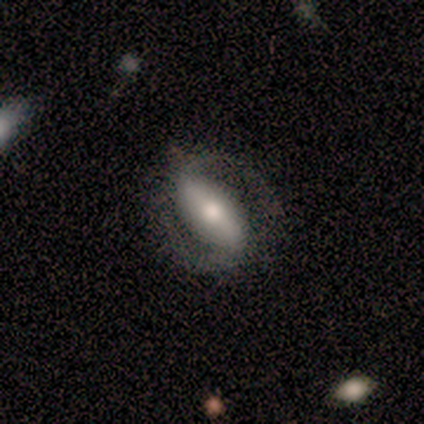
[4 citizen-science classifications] Smooth or featured?
  - featured or disk: 75% *
  - smooth: 25%
  - star or artifact: 0%
Edge-on disk?
  - no: 100% *
  - yes: 0%
Bar?
  - strong: 67% *
  - weak: 33%
  - no: 0%
Spiral arms?
  - yes: 67% *
  - no: 33%
Spiral winding?
  - loose: 100% *
  - tight: 0%
  - medium: 0%
Spiral arm count?
  - 2: 100% *
  - 1: 0%
  - 3: 0%
  - 4: 0%
  - more than 4: 0%
  - can't tell: 0%
Bulge size?
  - large: 33% * (tied)
  - small: 33% * (tied)
  - none: 33% * (tied)
  - dominant: 0%
  - moderate: 0%
Merging?
  - none: 100% *
  - minor disturbance: 0%
  - major disturbance: 0%
  - merger: 0%